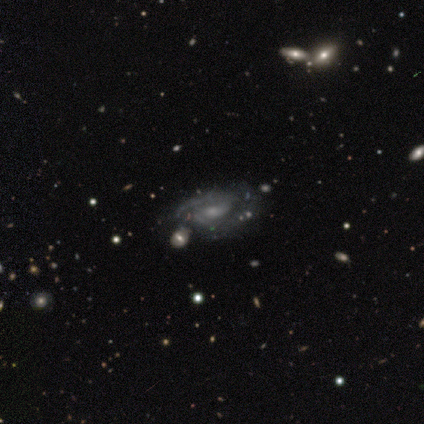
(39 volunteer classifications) A featured or disk galaxy (87%) with no bar (59%), 2 (67%) medium (60%) spiral arms (88%) and a small central bulge (68%).

Vote fractions:
- Smooth or featured? featured or disk: 87% / star or artifact: 8% / smooth: 5%
- Edge-on disk? no: 100% / yes: 0%
- Bar? no: 59% / weak: 32% / strong: 9%
- Spiral arms? yes: 88% / no: 12%
- Spiral winding? medium: 60% / tight: 27% / loose: 13%
- Spiral arm count? 2: 67% / can't tell: 23% / 1: 10% / 3: 0% / 4: 0% / more than 4: 0%
- Bulge size? small: 68% / none: 18% / moderate: 15% / dominant: 0% / large: 0%
- Merging? none: 39% / merger: 17% / minor disturbance: 11% / major disturbance: 3%